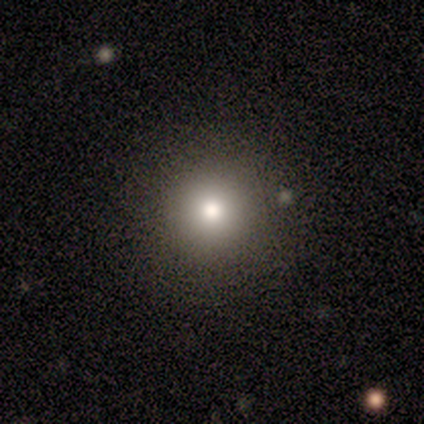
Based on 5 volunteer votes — smooth 80%, star or artifact 20%, featured or disk 0%. Down the decision tree: how rounded — round (100%); merging — none (100%).